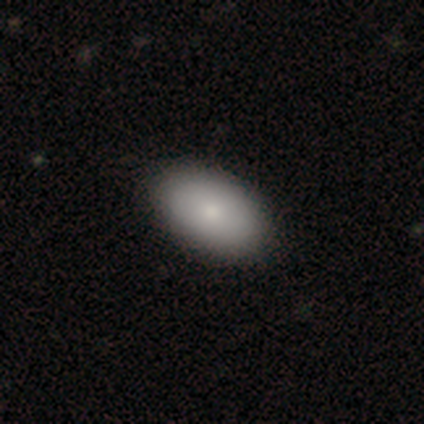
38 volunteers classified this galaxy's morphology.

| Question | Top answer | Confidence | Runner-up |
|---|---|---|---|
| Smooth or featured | smooth | 79% | featured or disk (13%) |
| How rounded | in between | 93% | round (7%) |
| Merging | none | 83% | — |